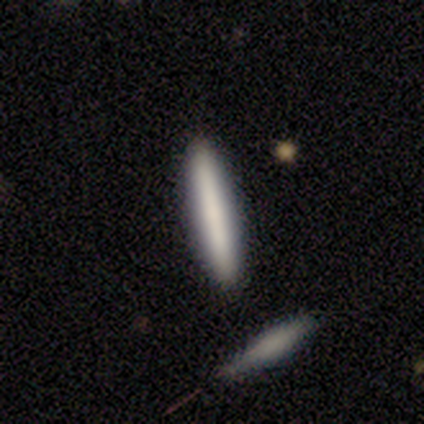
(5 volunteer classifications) Smooth or featured? 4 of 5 (80%) said smooth. How rounded? 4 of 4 (100%) said cigar-shaped. Merging? 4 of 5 (80%) said none.